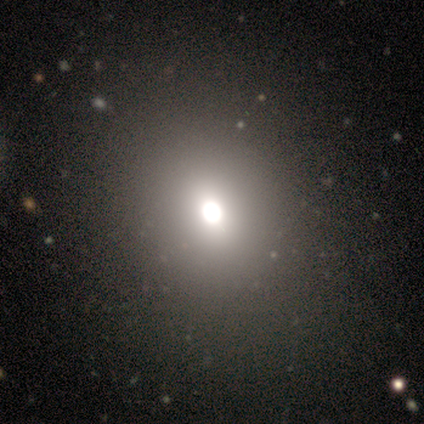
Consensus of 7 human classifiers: This appears to be a smooth galaxy with no disk features (57%) that is round (100%). Merging: none (100%).